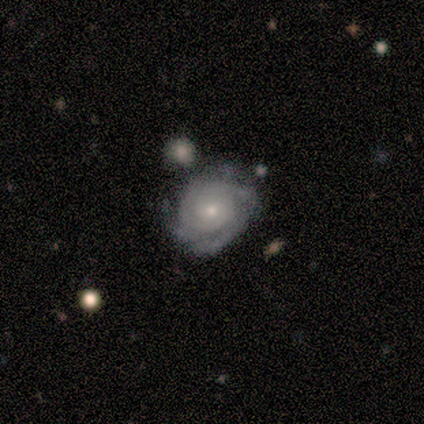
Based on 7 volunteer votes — Morphology: type=featured or disk (86%); edge-on=no (100%); bar=no (67%); spiral arms=yes (83%); winding=tight (60%); arm count=can't tell (40%); bulge=small (83%); merging=none (71%).